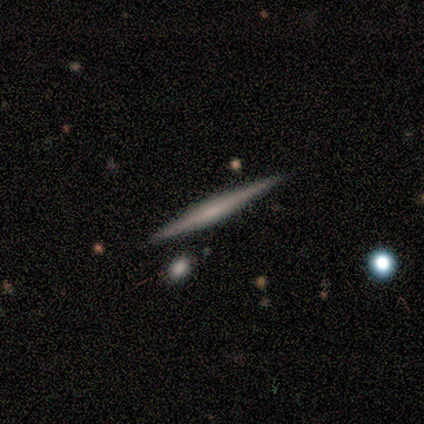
smooth_or_featured: featured or disk (p=0.75) [alt: smooth p=0.25]
disk_edge_on: yes (p=1.00)
edge_on_bulge: none (p=0.67) [alt: boxy p=0.33]
merging: none (p=1.00)